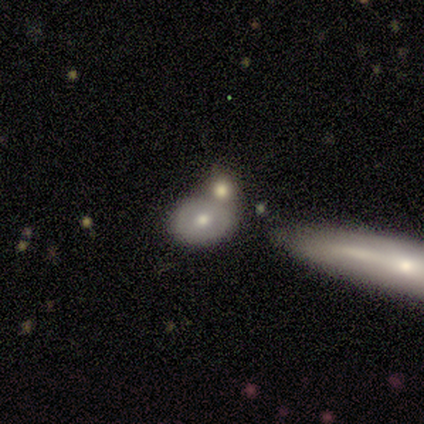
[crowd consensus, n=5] This is clearly a smooth galaxy (100%). How rounded: clearly in between (80%). Merging: likely none (60%).